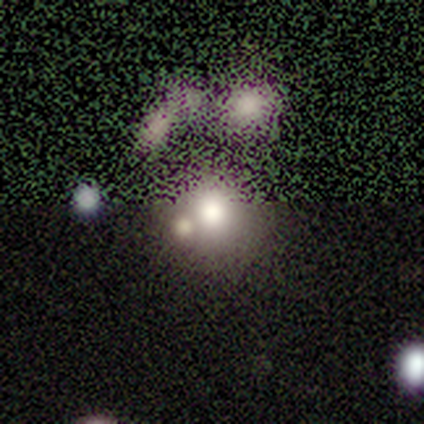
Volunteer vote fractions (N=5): Overall: smooth (80%). How rounded: round (50%, tied with in between). Merging: merger (50%; none 25%).